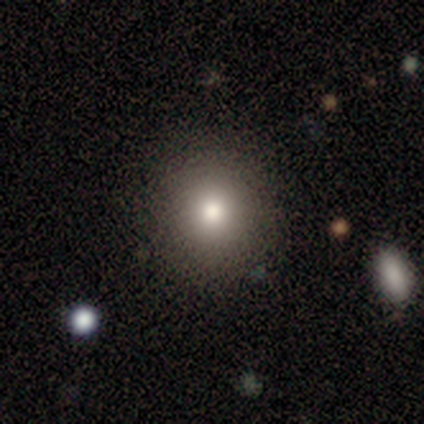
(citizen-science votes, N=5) Smooth or featured: star or artifact — 60% (smooth — 40%)